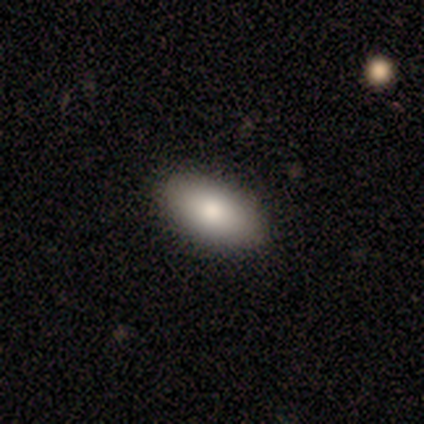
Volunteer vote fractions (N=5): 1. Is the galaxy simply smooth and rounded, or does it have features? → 80% smooth, 20% star or artifact, 0% featured or disk.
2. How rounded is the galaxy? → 100% in between, 0% round, 0% cigar-shaped.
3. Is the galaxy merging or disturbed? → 75% none, 25% minor disturbance, 0% major disturbance, 0% merger.